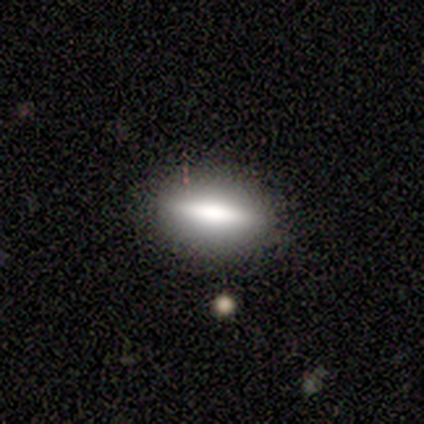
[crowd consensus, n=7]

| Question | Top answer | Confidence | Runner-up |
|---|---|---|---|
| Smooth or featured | smooth | 57% | featured or disk (43%) |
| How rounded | cigar-shaped | 100% | — |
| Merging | none | 86% | major disturbance (14%) |